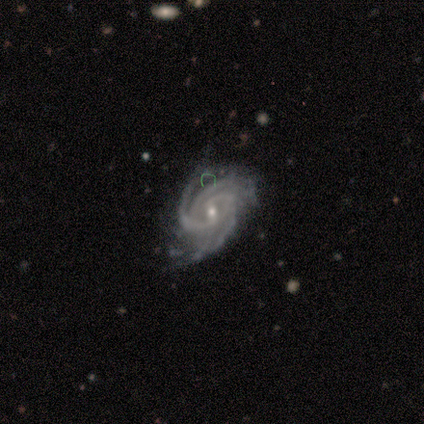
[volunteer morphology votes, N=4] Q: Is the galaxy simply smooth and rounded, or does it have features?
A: featured or disk — 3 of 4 (75%).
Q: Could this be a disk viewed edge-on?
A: no — 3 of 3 (100%).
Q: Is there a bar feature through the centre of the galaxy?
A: weak — 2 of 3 (67%).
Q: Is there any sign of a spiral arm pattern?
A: yes — 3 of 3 (100%).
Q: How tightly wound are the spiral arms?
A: tight — 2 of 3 (67%).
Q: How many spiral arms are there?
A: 3 — 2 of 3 (67%).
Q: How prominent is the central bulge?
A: small — 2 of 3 (67%).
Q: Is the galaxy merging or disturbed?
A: none — 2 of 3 (67%).